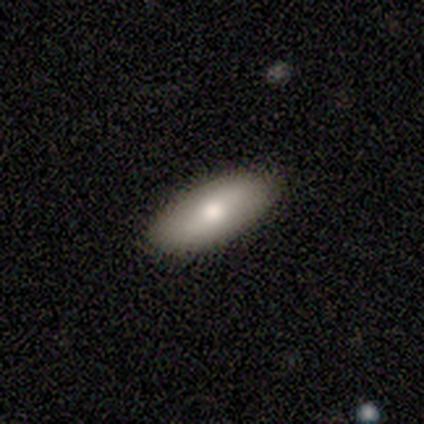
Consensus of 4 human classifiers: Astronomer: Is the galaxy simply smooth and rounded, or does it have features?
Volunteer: smooth — 100%.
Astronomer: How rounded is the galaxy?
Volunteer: in between — 100%.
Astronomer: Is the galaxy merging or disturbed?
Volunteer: none — 100%.